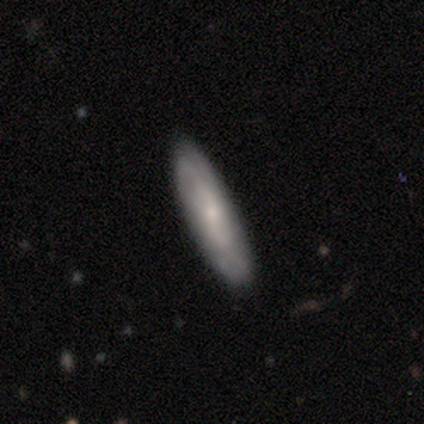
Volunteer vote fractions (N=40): Q: Smooth or featured?
A: smooth (48%); runner-up: featured or disk (45%)
Q: How rounded?
A: cigar-shaped (63%); runner-up: in between (37%)
Q: Merging?
A: none (57%); runner-up: minor disturbance (8%)